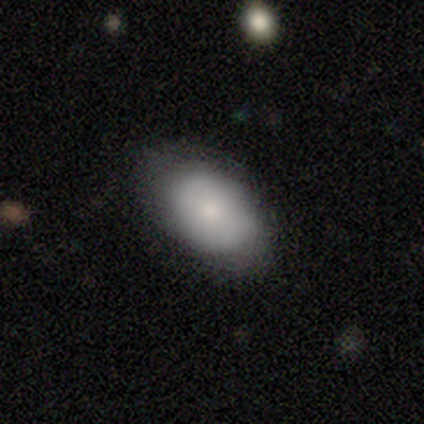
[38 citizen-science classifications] Volunteers were most divided on "merging": none: 72%, minor disturbance: 22%, major disturbance: 6%, merger: 0%. More confident: how rounded — in between (93%); smooth or featured — smooth (76%).